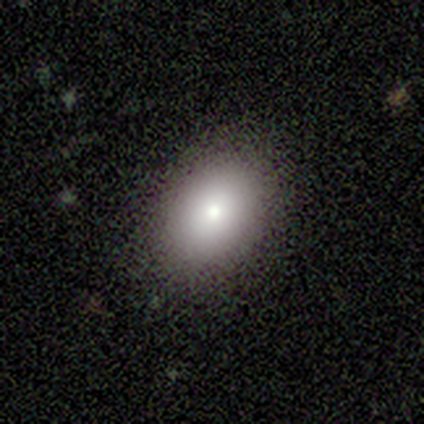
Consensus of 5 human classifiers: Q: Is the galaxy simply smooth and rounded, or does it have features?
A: smooth — 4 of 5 (80%).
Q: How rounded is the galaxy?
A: round — 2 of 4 (50%, tied with in between).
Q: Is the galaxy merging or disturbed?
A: none — 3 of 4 (75%).